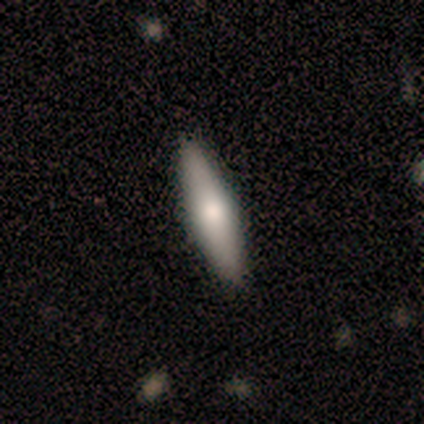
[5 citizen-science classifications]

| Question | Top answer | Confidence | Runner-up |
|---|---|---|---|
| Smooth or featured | star or artifact | 60% | featured or disk (40%) |